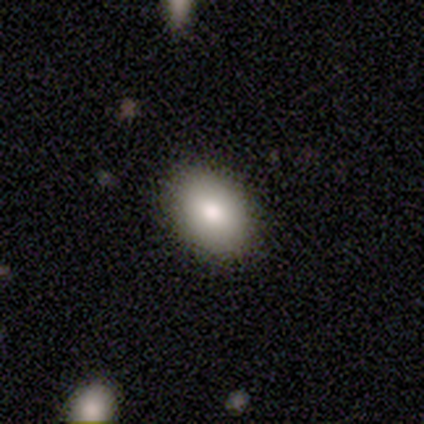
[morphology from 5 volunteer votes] Q: Smooth or featured?
A: smooth (100%)
Q: How rounded?
A: in between (100%)
Q: Merging?
A: none (100%)